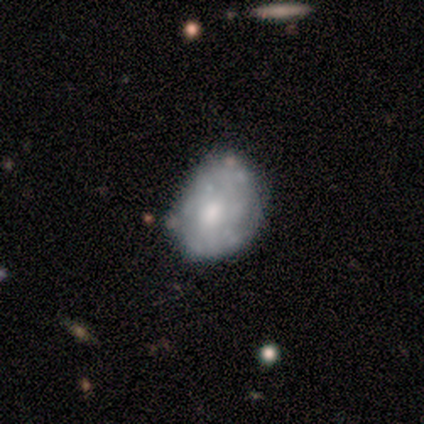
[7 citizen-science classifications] Q: Smooth or featured?
A: featured or disk (57%); runner-up: smooth (43%)
Q: Edge-on disk?
A: no (100%)
Q: Bar?
A: no (75%); runner-up: weak (25%)
Q: Spiral arms?
A: no (100%)
Q: Bulge size?
A: moderate (50%); tied with: small (50%)
Q: Merging?
A: none (57%); runner-up: minor disturbance (29%)